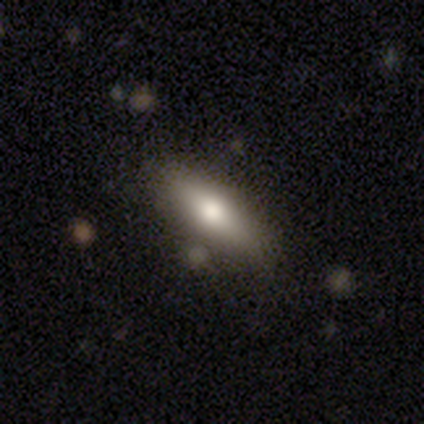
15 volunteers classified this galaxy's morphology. type=smooth (87%); roundness=cigar-shaped (54%); merging=none (92%).